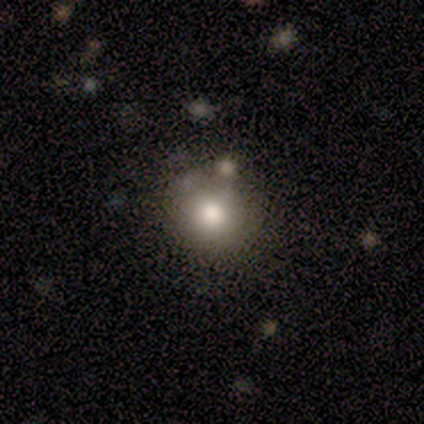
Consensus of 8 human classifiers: Smooth or featured? smooth (88%)
How rounded? round (100%)
Merging? none (71%)